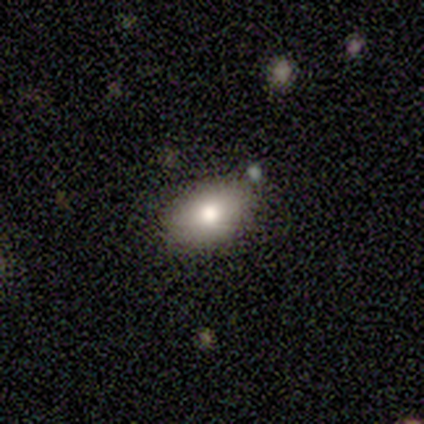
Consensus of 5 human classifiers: Volunteers were most divided on "smooth or featured": smooth: 80%, featured or disk: 20%, star or artifact: 0%. More confident: how rounded — in between (100%); merging — none (80%).